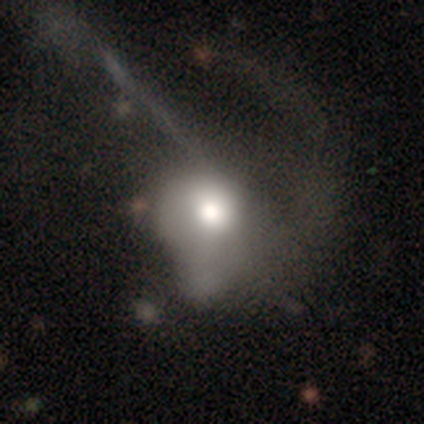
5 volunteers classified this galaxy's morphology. This appears to be a featured or disk galaxy (100%) with no bar (75%), no spiral arms (75%) and a large central bulge (50%). Merging: major disturbance (60%).